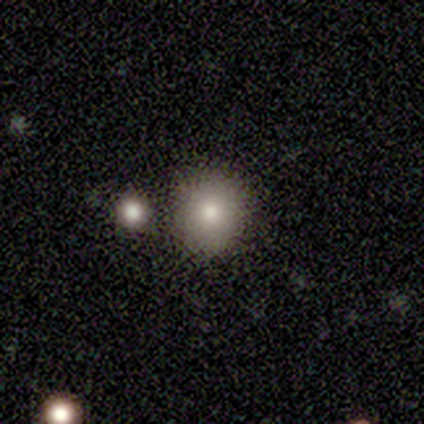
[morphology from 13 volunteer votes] smooth 92%, featured or disk 8%, star or artifact 0%. Down the decision tree: how rounded — round (83%); merging — none (85%).